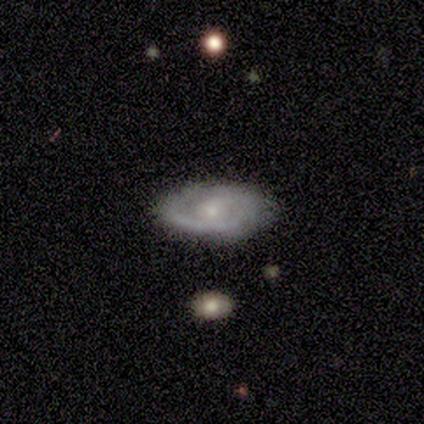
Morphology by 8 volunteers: A featured or disk galaxy (75%) with no bar (100%), 1 (67%) tight (67%) spiral arms (100%) and a small central bulge (100%). Merging: none (88%).